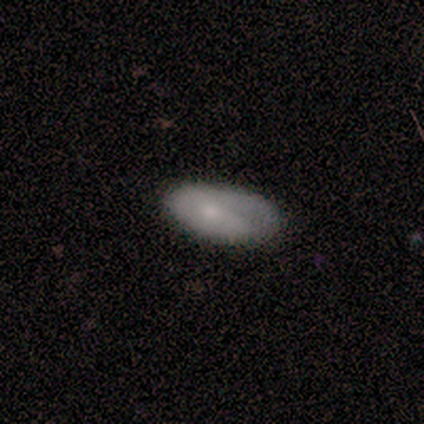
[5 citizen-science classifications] Smooth or featured: smooth — 100%
How rounded: in between — 100%
Merging: minor disturbance — 60% (none — 40%)